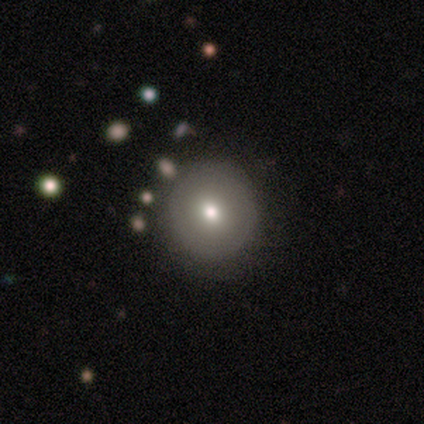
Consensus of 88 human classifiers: This appears to be a smooth galaxy with no disk features (75%) that is round (100%). Merging: none (90%).